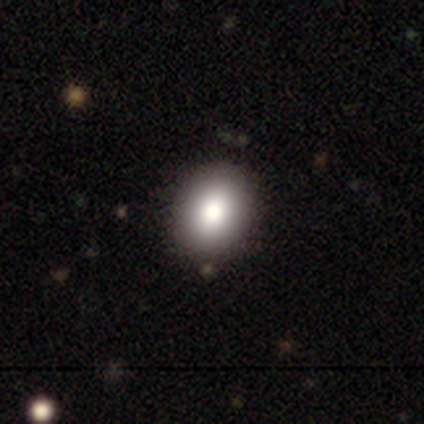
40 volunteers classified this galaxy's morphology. smooth 82%, star or artifact 12%, featured or disk 5%. Down the decision tree: how rounded — round (48%, tied with in between); merging — none (83%).